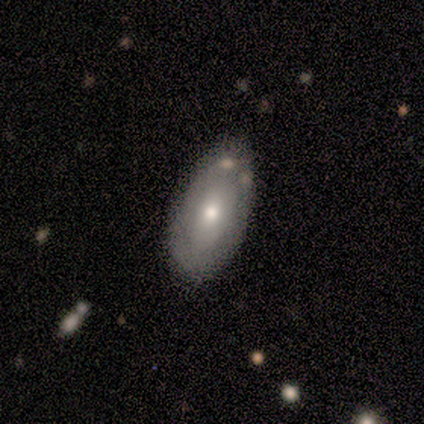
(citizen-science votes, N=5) Volunteers were most divided on "smooth or featured": featured or disk: 60%, smooth: 40%, star or artifact: 0%. More confident: edge-on disk — no (100%); bar — no (100%); bulge size — moderate (100%); merging — none (100%); spiral arms — no (67%).